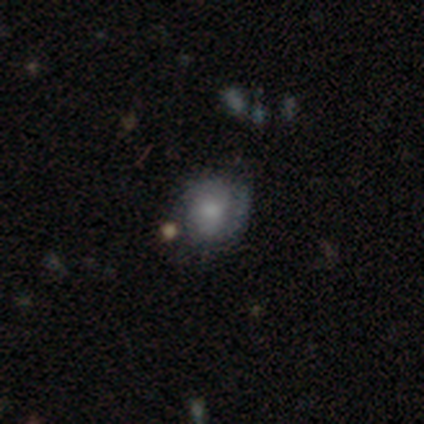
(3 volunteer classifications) Smooth or featured?
  - smooth: 67% *
  - star or artifact: 33%
  - featured or disk: 0%
How rounded?
  - round: 50% * (tied)
  - in between: 50% * (tied)
  - cigar-shaped: 0%
Merging?
  - none: 50% * (tied)
  - minor disturbance: 50% * (tied)
  - major disturbance: 0%
  - merger: 0%